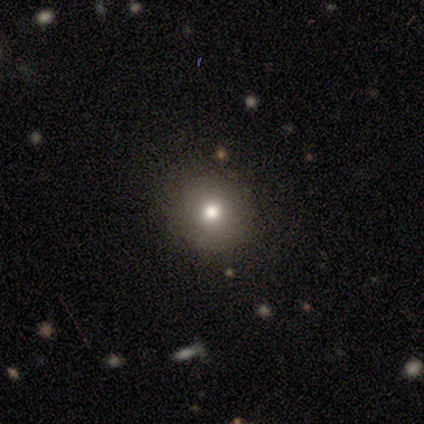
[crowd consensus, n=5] Smooth or featured: smooth — 80% (featured or disk — 20%)
How rounded: round — 75% (in between — 25%)
Merging: none — 60% (minor disturbance — 40%)